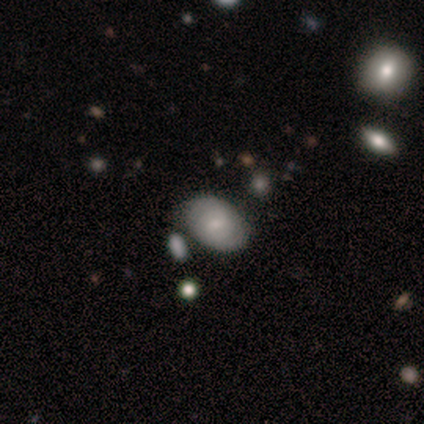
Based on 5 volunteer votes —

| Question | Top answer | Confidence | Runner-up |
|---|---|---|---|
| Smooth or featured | featured or disk | 60% | smooth (40%) |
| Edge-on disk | no | 100% | — |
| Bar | no | 67% | weak (33%) |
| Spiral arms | yes | 67% | no (33%) |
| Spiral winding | tight | 100% | — |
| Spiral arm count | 2 | 100% | — |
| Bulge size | small | 67% | moderate (33%) |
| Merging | none | 60% | minor disturbance (20%) |